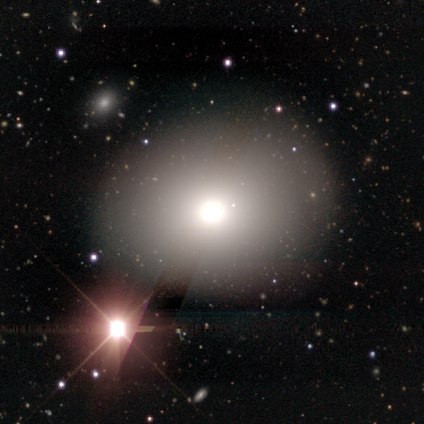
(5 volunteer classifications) Smooth or featured? smooth (60%)
How rounded? in between (67%)
Merging? none (100%)